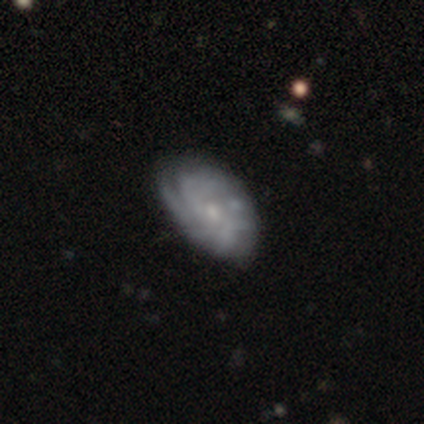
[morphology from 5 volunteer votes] Q: Smooth or featured?
A: featured or disk (100%)
Q: Edge-on disk?
A: no (80%); runner-up: yes (20%)
Q: Bar?
A: no (75%); runner-up: weak (25%)
Q: Spiral arms?
A: yes (75%); runner-up: no (25%)
Q: Spiral winding?
A: tight (100%)
Q: Spiral arm count?
A: can't tell (67%); runner-up: 2 (33%)
Q: Bulge size?
A: small (100%)
Q: Merging?
A: none (80%); runner-up: minor disturbance (20%)